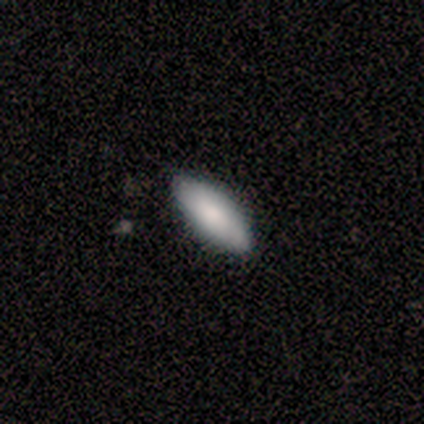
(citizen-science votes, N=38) A smooth galaxy with no disk features (87%) that is in between round and cigar-shaped (64%).

Vote fractions:
- Smooth or featured? smooth: 87% / featured or disk: 11% / star or artifact: 3%
- How rounded? in between: 64% / cigar-shaped: 33% / round: 3%
- Merging? none: 95% / minor disturbance: 5% / major disturbance: 0% / merger: 0%